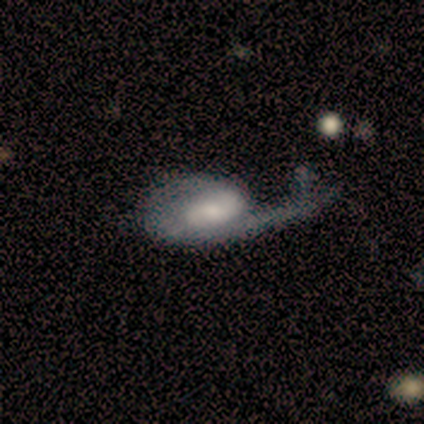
smooth-or-featured: featured or disk: 80% | smooth: 20% | star or artifact: 0%
  disk-edge-on: no: 100% | yes: 0%
    bar: weak: 75% | no: 25% | strong: 0%
    has-spiral-arms: yes: 100% | no: 0%
      spiral-winding: loose: 50% | tight: 25% | medium: 25%
      spiral-arm-count: 1: 75% | 2: 25% | 3: 0% | 4: 0% | more than 4: 0% | can't tell: 0%
    bulge-size: moderate: 75% | small: 25% | dominant: 0% | large: 0% | none: 0%
  merging: major disturbance: 80% | minor disturbance: 20% | none: 0% | merger: 0%